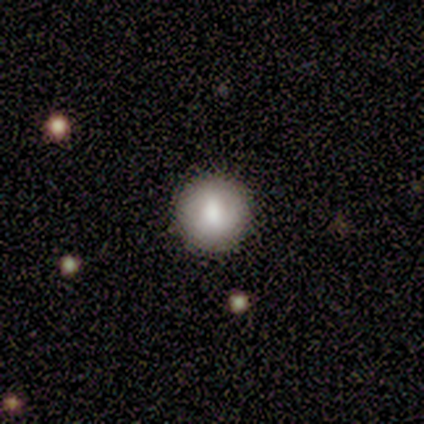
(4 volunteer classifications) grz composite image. It shows a smooth galaxy with no disk features (100%) that is round (100%). Merging: none (100%).